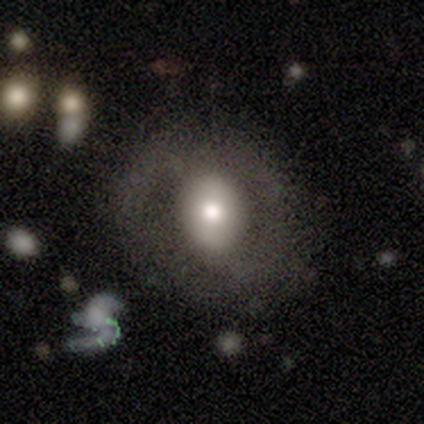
This appears to be a featured or disk galaxy (58%) with no bar (65%), no spiral arms (80%) and a moderate central bulge (35%). Merging: none (67%).